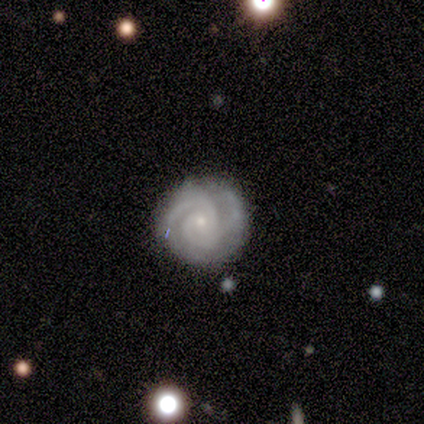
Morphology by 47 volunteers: Q: Smooth or featured?
A: featured or disk (87%); runner-up: smooth (6%)
Q: Edge-on disk?
A: no (98%); runner-up: yes (2%)
Q: Bar?
A: no (82%); runner-up: weak (15%)
Q: Spiral arms?
A: yes (100%)
Q: Spiral winding?
A: tight (88%); runner-up: medium (12%)
Q: Spiral arm count?
A: 2 (57%); runner-up: 3 (32%)
Q: Bulge size?
A: small (75%); runner-up: moderate (20%)
Q: Merging?
A: none (66%); runner-up: minor disturbance (27%)